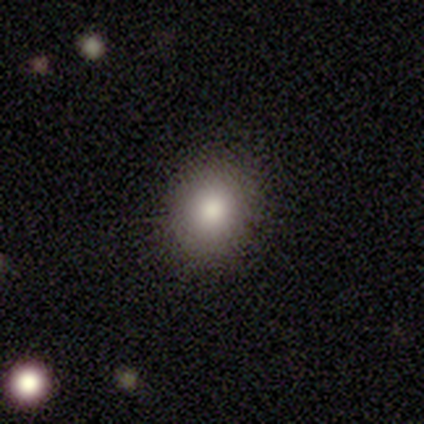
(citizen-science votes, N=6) A smooth galaxy with no disk features (83%) that is round (80%). Merging: none (100%).